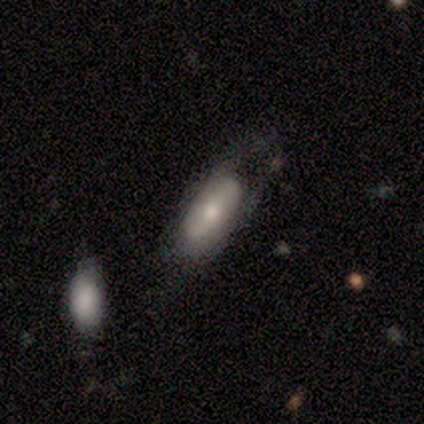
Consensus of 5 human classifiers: Smooth or featured?
  - featured or disk: 60% *
  - smooth: 20%
  - star or artifact: 20%
Edge-on disk?
  - no: 100% *
  - yes: 0%
Bar?
  - no: 100% *
  - strong: 0%
  - weak: 0%
Spiral arms?
  - no: 100% *
  - yes: 0%
Bulge size?
  - small: 67% *
  - moderate: 33%
  - dominant: 0%
  - large: 0%
  - none: 0%
Merging?
  - none: 50% *
  - minor disturbance: 25%
  - major disturbance: 25%
  - merger: 0%